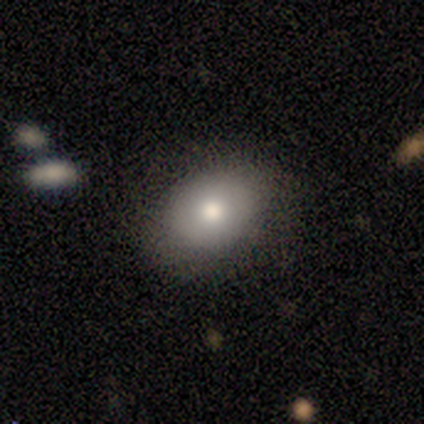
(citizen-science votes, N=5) smooth_or_featured: smooth (p=0.60) [alt: featured or disk p=0.40]
how_rounded: round (p=1.00)
merging: none (p=0.80) [alt: minor disturbance p=0.20]